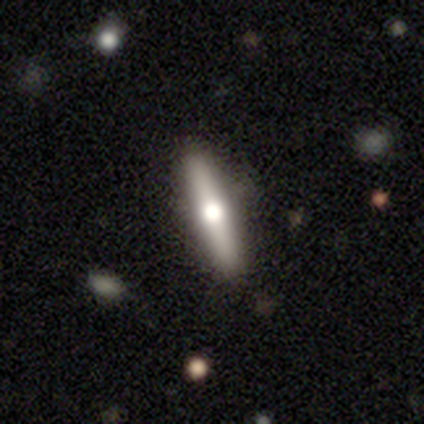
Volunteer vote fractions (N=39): smooth-or-featured: featured or disk: 54% | smooth: 36% | star or artifact: 10%
  disk-edge-on: yes: 100% | no: 0%
    edge-on-bulge: rounded: 100% | boxy: 0% | none: 0%
  merging: none: 91% | minor disturbance: 6% | major disturbance: 3% | merger: 0%